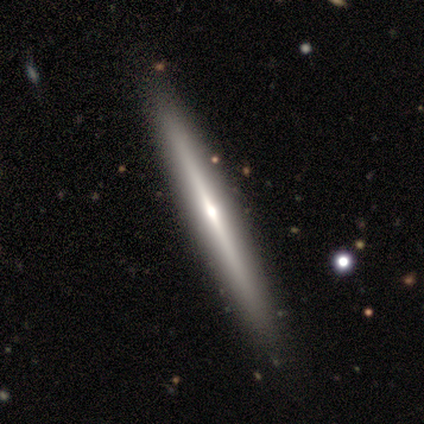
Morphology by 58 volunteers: Volunteers were most divided on "smooth or featured": featured or disk: 69%, smooth: 28%, star or artifact: 3%. More confident: edge-on disk — yes (98%); edge-on bulge — rounded (69%); merging — none (64%).